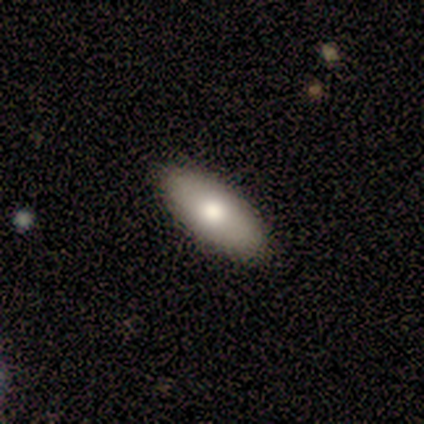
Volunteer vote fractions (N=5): Q: Smooth or featured?
A: smooth (80%); runner-up: featured or disk (20%)
Q: How rounded?
A: in between (75%); runner-up: cigar-shaped (25%)
Q: Merging?
A: none (80%); runner-up: minor disturbance (20%)